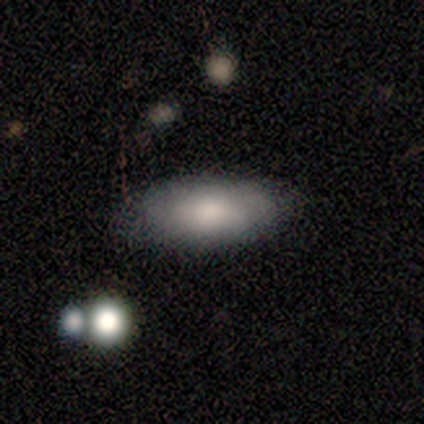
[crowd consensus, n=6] smooth 83%, featured or disk 17%, star or artifact 0%. Down the decision tree: how rounded — in between (100%); merging — none (67%).